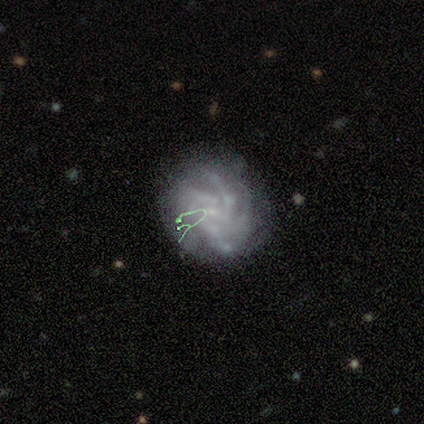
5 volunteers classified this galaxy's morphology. Overall: featured or disk (80%). Edge-on disk: no (100%). Bar: no (75%). Spiral arms: yes (100%). Spiral arm count: 4 (100%). Spiral winding: tight (75%). Bulge size: small (100%). Merging: minor disturbance (40%, tied with major disturbance).